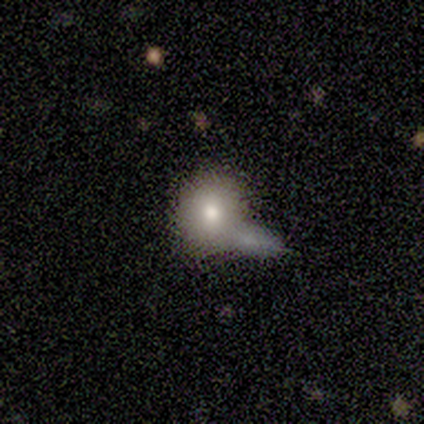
smooth_or_featured: smooth (p=0.60) [alt: featured or disk p=0.40]
how_rounded: round (p=0.67) [alt: in between p=0.33]
merging: none (p=0.40) [tied with: minor disturbance p=0.40]